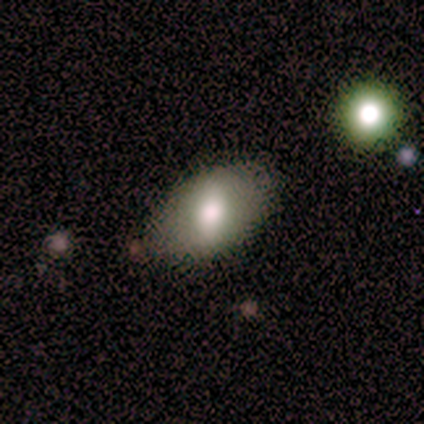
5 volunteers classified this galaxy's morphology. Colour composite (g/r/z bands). It shows a smooth galaxy with no disk features (80%) that is in between round and cigar-shaped (100%). Merging: none (80%).